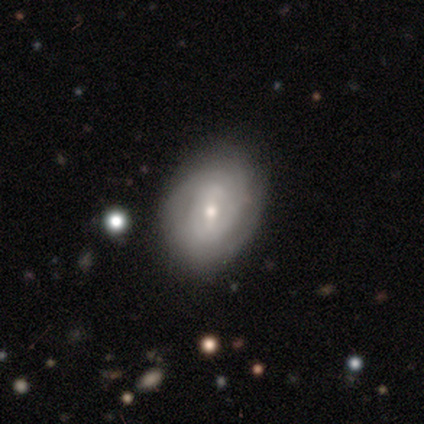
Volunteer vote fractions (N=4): featured or disk 100%, smooth 0%, star or artifact 0%. Down the decision tree: edge-on disk — no (75%); bar — weak (100%); spiral arms — yes (100%); spiral arm count — 3 (33%, tied with 4 and can't tell); spiral winding — tight (67%); bulge size — small (67%); merging — none (100%).